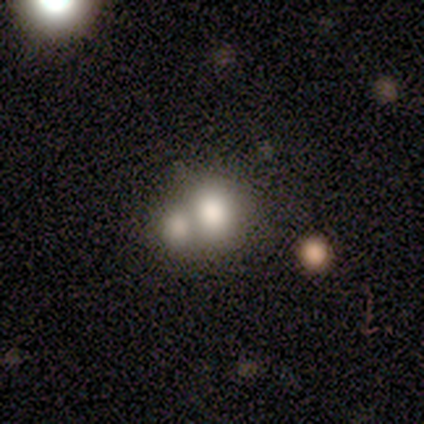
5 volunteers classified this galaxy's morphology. Q: Smooth or featured?
A: smooth (60%); runner-up: star or artifact (40%)
Q: How rounded?
A: round (67%); runner-up: in between (33%)
Q: Merging?
A: merger (67%); runner-up: none (33%)